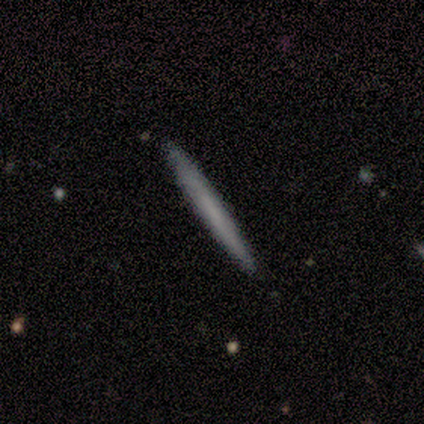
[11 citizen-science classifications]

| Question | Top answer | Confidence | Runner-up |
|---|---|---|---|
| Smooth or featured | featured or disk | 55% | smooth (45%) |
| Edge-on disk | yes | 100% | — |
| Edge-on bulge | none | 100% | — |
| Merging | none | 100% | — |